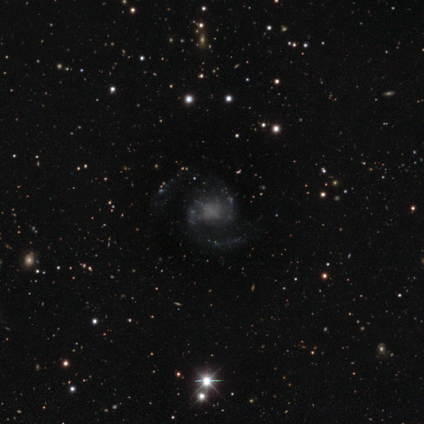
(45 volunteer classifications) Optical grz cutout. It shows a featured or disk galaxy (78%) with no bar (65%), 2 (88%) medium (56%) spiral arms (94%) and no central bulge (50%). Merging: none (68%).